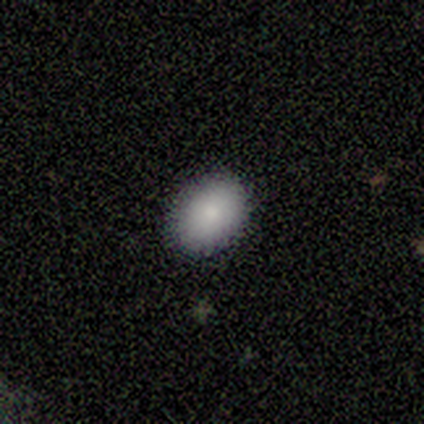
Smooth or featured?
  - smooth: 80% *
  - featured or disk: 20%
  - star or artifact: 0%
How rounded?
  - in between: 75% *
  - round: 25%
  - cigar-shaped: 0%
Merging?
  - none: 80% *
  - minor disturbance: 20%
  - major disturbance: 0%
  - merger: 0%